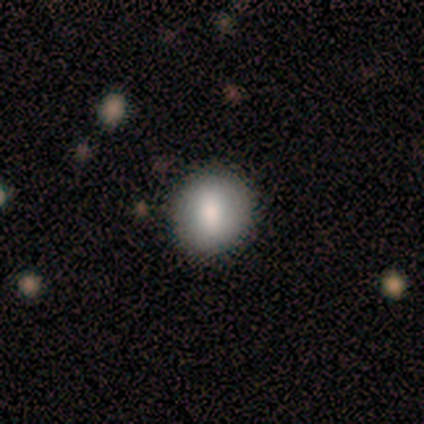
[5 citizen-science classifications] Smooth or featured? smooth (80%)
How rounded? round (50%, tied with in between)
Merging? none (80%)